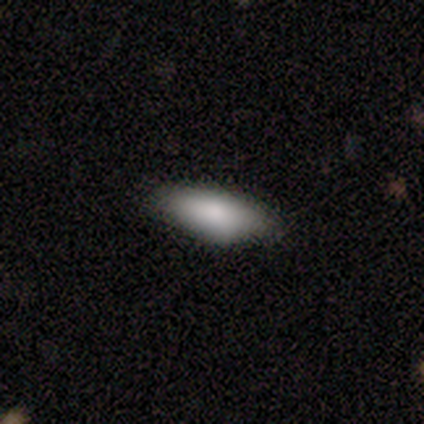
smooth 100%, featured or disk 0%, star or artifact 0%. Down the decision tree: how rounded — in between (80%); merging — none (100%).